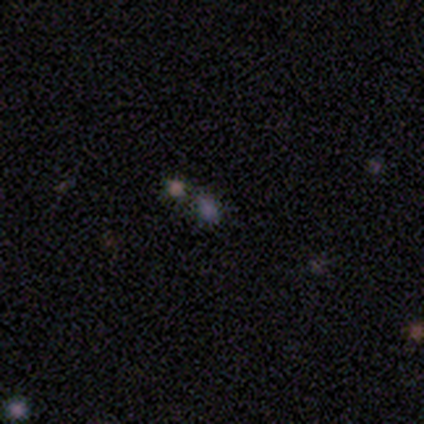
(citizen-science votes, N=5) Smooth or featured? 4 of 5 (80%) said star or artifact.